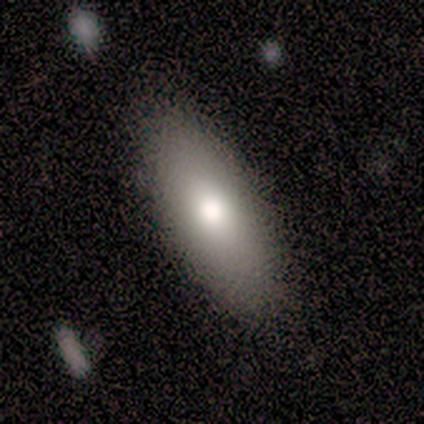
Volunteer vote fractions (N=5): Morphology: type=smooth (100%); roundness=in between (80%); merging=none (100%).